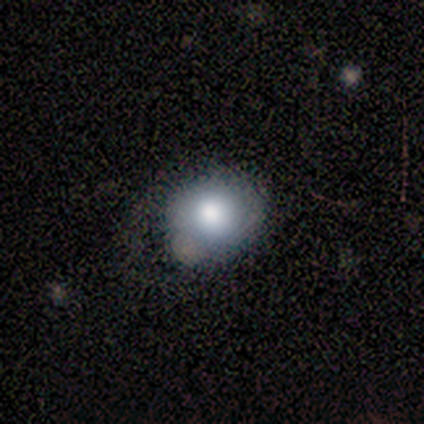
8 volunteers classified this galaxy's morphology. A smooth galaxy with no disk features (62%) that is round (60%).

Vote fractions:
- Smooth or featured? smooth: 62% / featured or disk: 38% / star or artifact: 0%
- How rounded? round: 60% / in between: 40% / cigar-shaped: 0%
- Merging? minor disturbance: 50% / none: 38% / major disturbance: 12% / merger: 0%